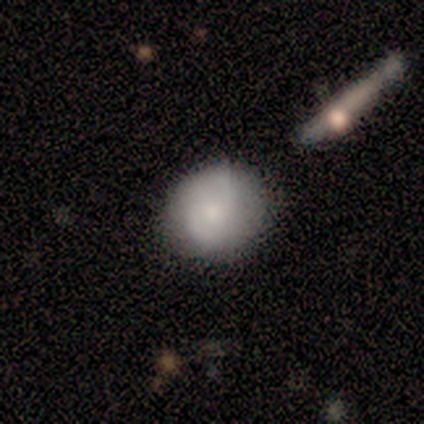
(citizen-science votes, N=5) smooth_or_featured: smooth (p=0.60) [alt: featured or disk p=0.40]
how_rounded: round (p=0.67) [alt: in between p=0.33]
merging: none (p=0.80) [alt: minor disturbance p=0.20]